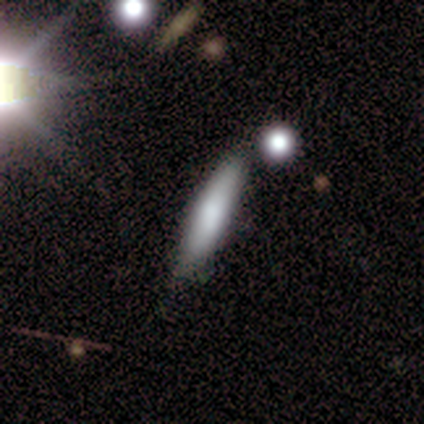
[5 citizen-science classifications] smooth_or_featured: smooth (p=0.80) [alt: featured or disk p=0.20]
how_rounded: cigar-shaped (p=1.00)
merging: none (p=0.60) [alt: minor disturbance p=0.20]